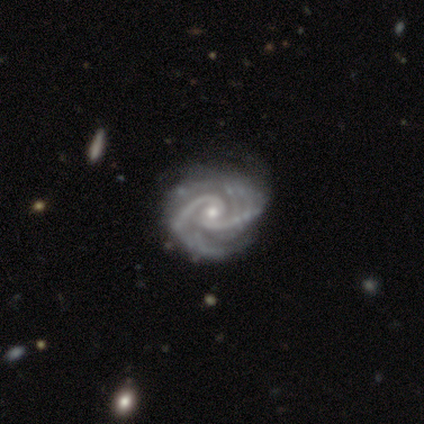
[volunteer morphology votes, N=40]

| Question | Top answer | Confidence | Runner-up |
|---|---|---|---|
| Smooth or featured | featured or disk | 100% | — |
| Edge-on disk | no | 98% | yes (2%) |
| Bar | no | 51% | weak (41%) |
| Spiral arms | yes | 100% | — |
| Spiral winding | medium | 46% | tight (41%) |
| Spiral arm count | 2 | 87% | 3 (10%) |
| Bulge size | small | 59% | moderate (41%) |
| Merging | none | 35% | minor disturbance (22%) |